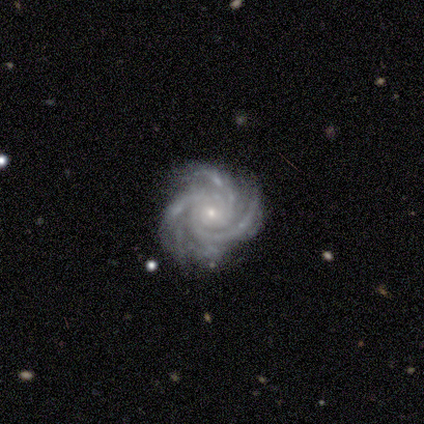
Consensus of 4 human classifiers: Overall: featured or disk (100%). Edge-on disk: no (100%). Bar: strong (50%; weak 25%). Spiral arms: yes (100%). Spiral arm count: 4 (50%; 3 25%). Spiral winding: tight (50%, tied with medium). Bulge size: small (75%). Merging: none (75%).